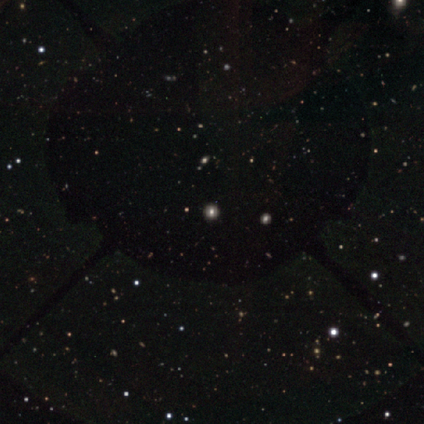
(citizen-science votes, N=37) Smooth or featured? star or artifact (62%)